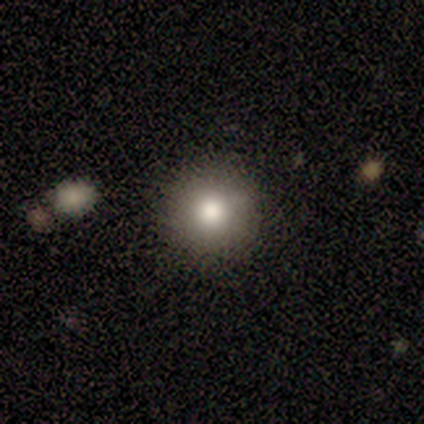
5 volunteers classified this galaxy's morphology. smooth-or-featured: smooth: 100% | featured or disk: 0% | star or artifact: 0%
  how-rounded: round: 100% | in between: 0% | cigar-shaped: 0%
  merging: none: 100% | minor disturbance: 0% | major disturbance: 0% | merger: 0%